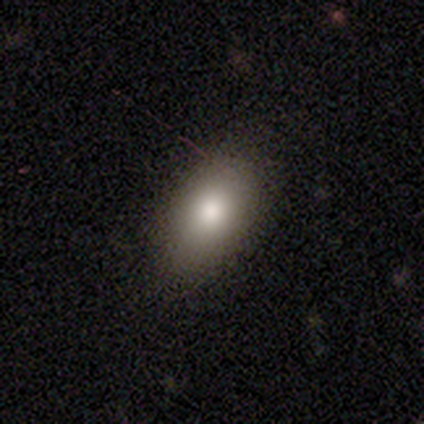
This appears to be a smooth galaxy with no disk features (100%) that is in between round and cigar-shaped (100%). Merging: none (100%).